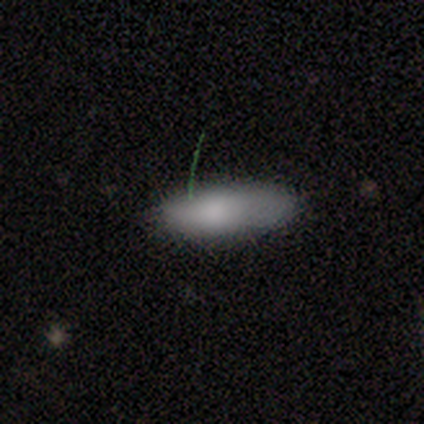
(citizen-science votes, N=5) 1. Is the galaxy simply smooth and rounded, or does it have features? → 80% smooth, 20% featured or disk, 0% star or artifact.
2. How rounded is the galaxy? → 50% in between (tied), 50% cigar-shaped (tied), 0% round.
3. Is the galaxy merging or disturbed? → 60% none, 20% minor disturbance, 20% major disturbance, 0% merger.